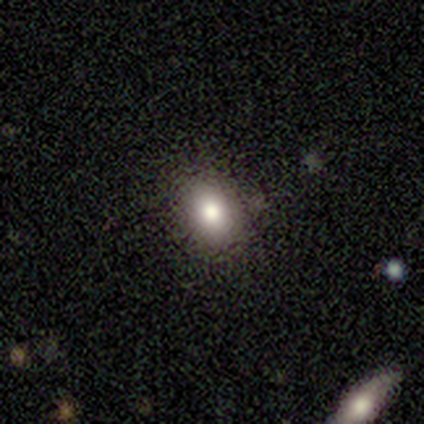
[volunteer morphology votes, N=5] smooth-or-featured: smooth: 100% | featured or disk: 0% | star or artifact: 0%
  how-rounded: in between: 60% | round: 40% | cigar-shaped: 0%
  merging: none: 80% | minor disturbance: 20% | major disturbance: 0% | merger: 0%